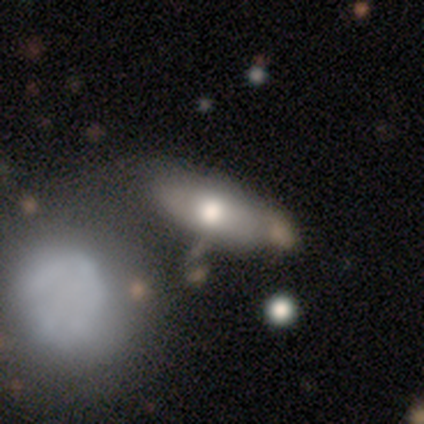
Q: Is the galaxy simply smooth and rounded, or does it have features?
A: smooth — 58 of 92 (63%).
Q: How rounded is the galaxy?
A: in between — 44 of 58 (76%).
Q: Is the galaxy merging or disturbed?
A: none — 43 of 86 (50%).